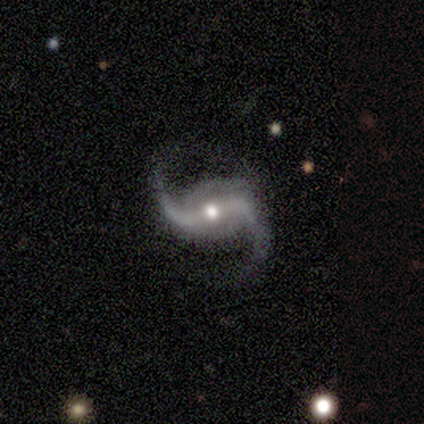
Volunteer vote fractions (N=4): smooth-or-featured: featured or disk: 75% | star or artifact: 25% | smooth: 0%
  disk-edge-on: no: 100% | yes: 0%
    bar: no: 67% | strong: 33% | weak: 0%
    has-spiral-arms: yes: 100% | no: 0%
      spiral-winding: loose: 67% | medium: 33% | tight: 0%
      spiral-arm-count: 2: 100% | 1: 0% | 3: 0% | 4: 0% | more than 4: 0% | can't tell: 0%
    bulge-size: large: 33% (tied) | moderate: 33% (tied) | small: 33% (tied) | dominant: 0% | none: 0%
  merging: none: 67% | minor disturbance: 33% | major disturbance: 0% | merger: 0%